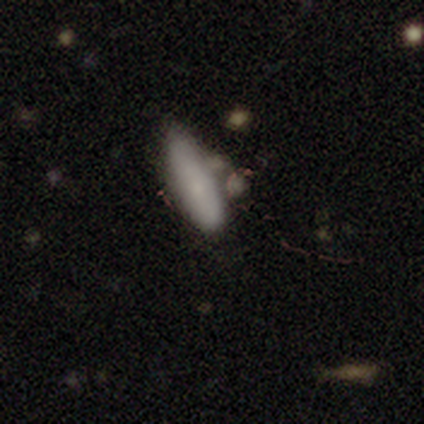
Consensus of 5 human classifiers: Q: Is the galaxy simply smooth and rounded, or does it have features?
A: smooth — 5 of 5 (100%).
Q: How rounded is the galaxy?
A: in between — 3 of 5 (60%).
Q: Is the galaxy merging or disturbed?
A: minor disturbance — 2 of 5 (40%).